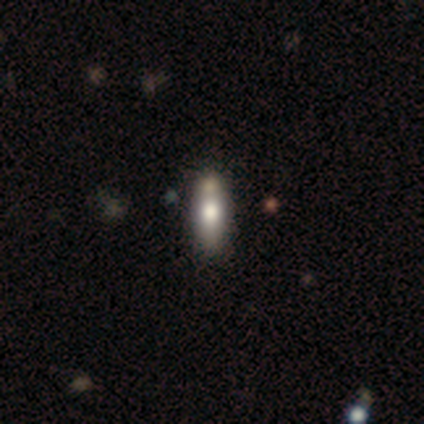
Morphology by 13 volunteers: Smooth or featured? smooth (54%)
How rounded? cigar-shaped (57%)
Merging? none (67%)